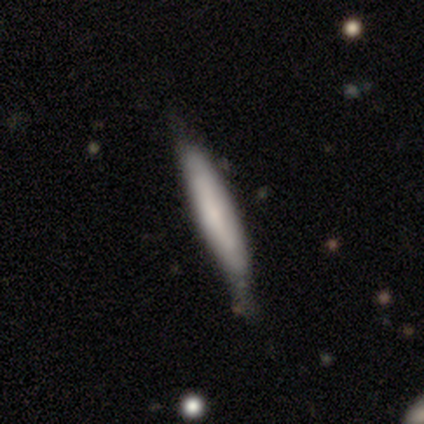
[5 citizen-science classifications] Smooth or featured? 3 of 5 (60%) said featured or disk. Edge-on disk? 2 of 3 (67%) said yes. Edge-on bulge? 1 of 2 (50%, tied with rounded) said none. Merging? 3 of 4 (75%) said none.